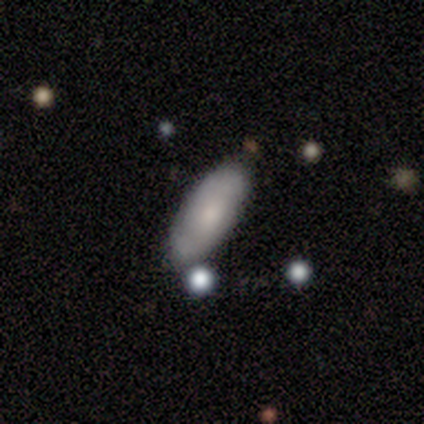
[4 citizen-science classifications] Smooth or featured? 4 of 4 (100%) said smooth. How rounded? 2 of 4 (50%, tied with cigar-shaped) said in between. Merging? 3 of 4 (75%) said none.